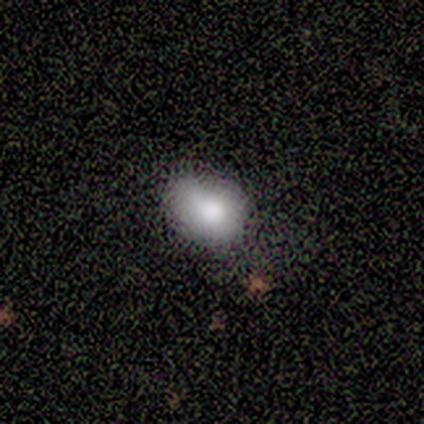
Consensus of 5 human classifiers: Smooth or featured: smooth — 80% (featured or disk — 20%)
How rounded: round — 75% (in between — 25%)
Merging: none — 100%